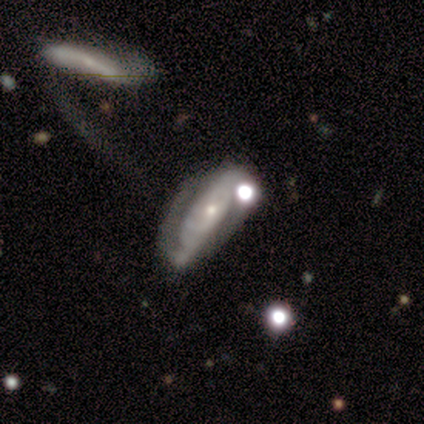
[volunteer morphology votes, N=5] Smooth or featured? 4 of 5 (80%) said featured or disk. Edge-on disk? 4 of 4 (100%) said no. Bar? 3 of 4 (75%) said no. Spiral arms? 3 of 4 (75%) said yes. Spiral winding? 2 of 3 (67%) said medium. Spiral arm count? 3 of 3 (100%) said 2. Bulge size? 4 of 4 (100%) said small. Merging? 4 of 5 (80%) said merger.